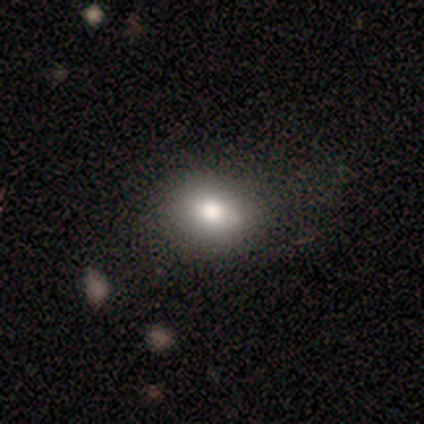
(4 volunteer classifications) Morphology: type=smooth (100%); roundness=round (50%, tied with in between); merging=none (50%, tied with minor disturbance).